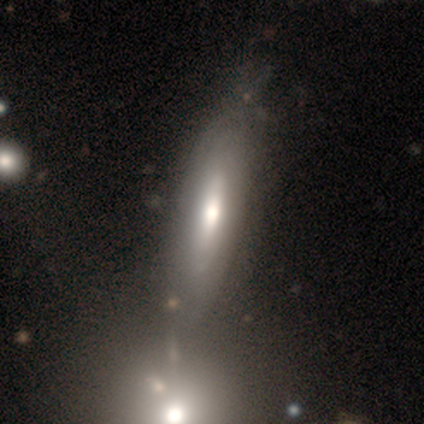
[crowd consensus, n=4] smooth 75%, featured or disk 25%, star or artifact 0%. Down the decision tree: how rounded — cigar-shaped (67%); merging — none (100%).